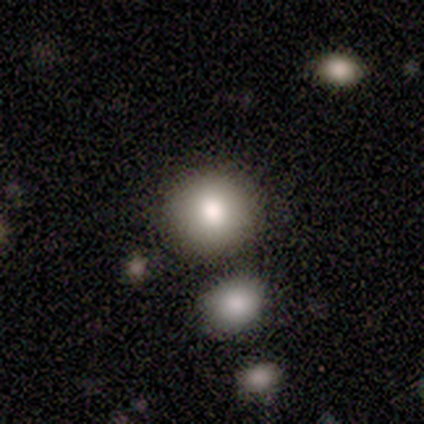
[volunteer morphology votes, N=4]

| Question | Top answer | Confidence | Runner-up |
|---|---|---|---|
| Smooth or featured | smooth | 100% | — |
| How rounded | round | 100% | — |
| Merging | none | 100% | — |